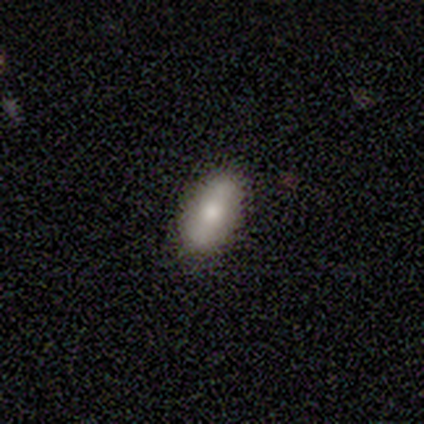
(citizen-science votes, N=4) A smooth galaxy with no disk features (100%) that is in between round and cigar-shaped (100%).

Vote fractions:
- Smooth or featured? smooth: 100% / featured or disk: 0% / star or artifact: 0%
- How rounded? in between: 100% / round: 0% / cigar-shaped: 0%
- Merging? none: 50% (tied) / minor disturbance: 50% (tied) / major disturbance: 0% / merger: 0%